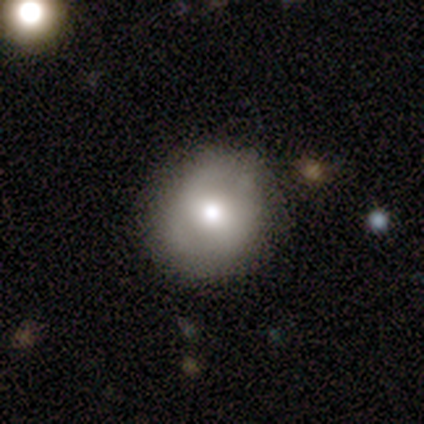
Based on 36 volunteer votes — smooth 64%, featured or disk 22%, star or artifact 14%. Down the decision tree: how rounded — round (100%); merging — none (94%).